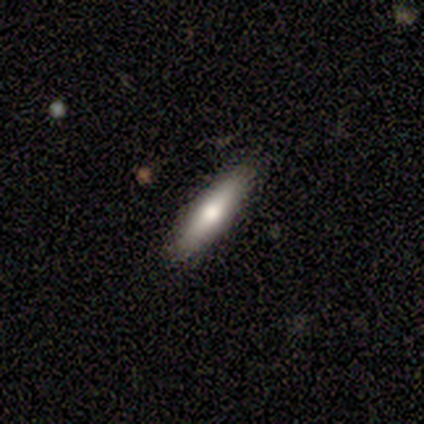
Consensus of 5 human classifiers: Q: Smooth or featured?
A: smooth (40%); tied with: star or artifact (40%)
Q: How rounded?
A: cigar-shaped (100%)
Q: Merging?
A: none (100%)